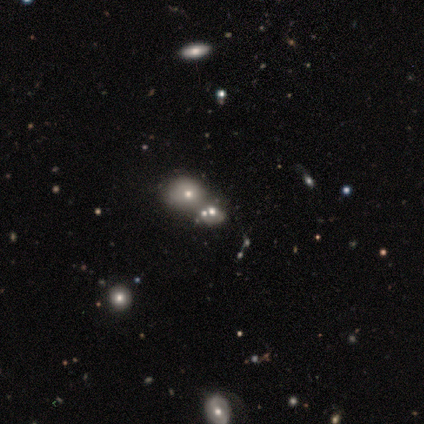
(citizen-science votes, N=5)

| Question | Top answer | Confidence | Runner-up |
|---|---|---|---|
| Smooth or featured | smooth | 80% | star or artifact (20%) |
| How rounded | round | 50% | tied: in between (50%) |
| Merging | none | 25% | tied: minor disturbance (25%), major disturbance (25%), merger (25%) |